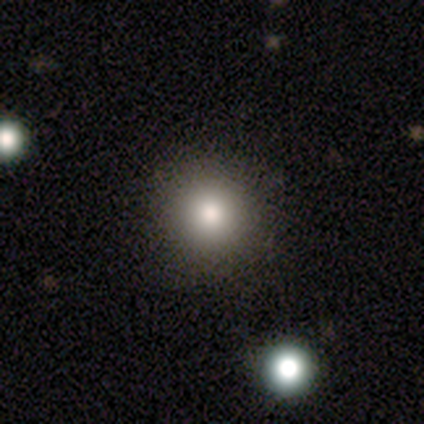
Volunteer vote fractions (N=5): Smooth or featured?
  - smooth: 100% *
  - featured or disk: 0%
  - star or artifact: 0%
How rounded?
  - round: 80% *
  - in between: 20%
  - cigar-shaped: 0%
Merging?
  - none: 80% *
  - minor disturbance: 20%
  - major disturbance: 0%
  - merger: 0%